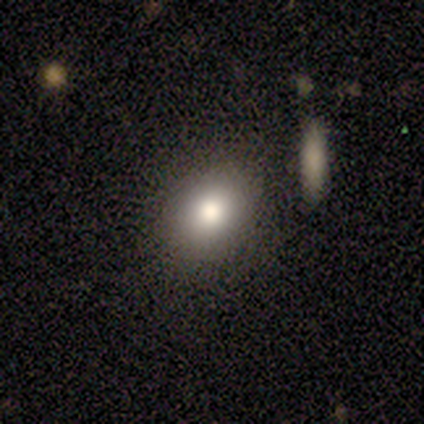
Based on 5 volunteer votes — Smooth or featured? 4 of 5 (80%) said smooth. How rounded? 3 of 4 (75%) said round. Merging? 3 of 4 (75%) said none.